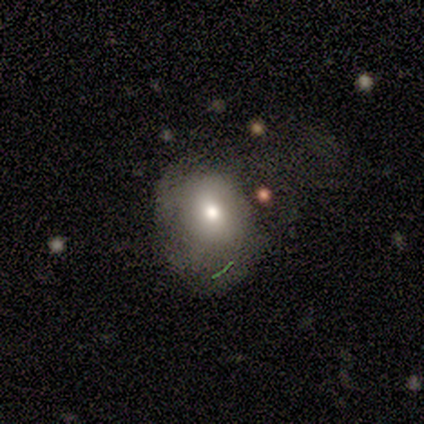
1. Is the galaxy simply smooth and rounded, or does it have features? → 80% smooth, 20% star or artifact, 0% featured or disk.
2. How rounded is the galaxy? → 50% round (tied), 50% in between (tied), 0% cigar-shaped.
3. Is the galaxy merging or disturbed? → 50% none (tied), 50% minor disturbance (tied), 0% major disturbance, 0% merger.